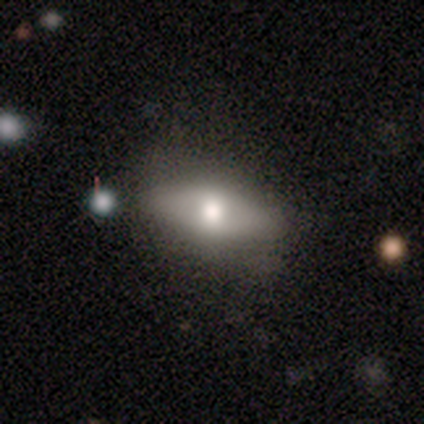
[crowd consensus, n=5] A smooth galaxy with no disk features (60%) that is in between round and cigar-shaped (67%). Merging: none (80%).